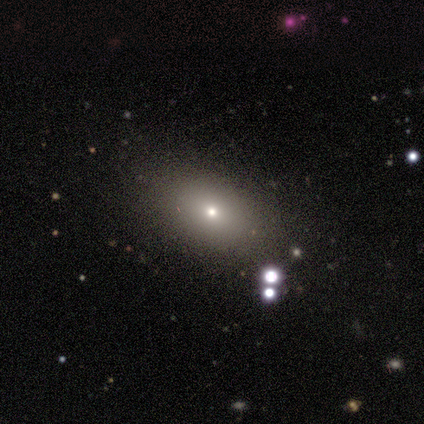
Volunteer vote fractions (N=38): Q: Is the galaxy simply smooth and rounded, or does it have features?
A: smooth — 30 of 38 (79%).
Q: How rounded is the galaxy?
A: in between — 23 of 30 (77%).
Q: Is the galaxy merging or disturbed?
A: none — 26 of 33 (79%).